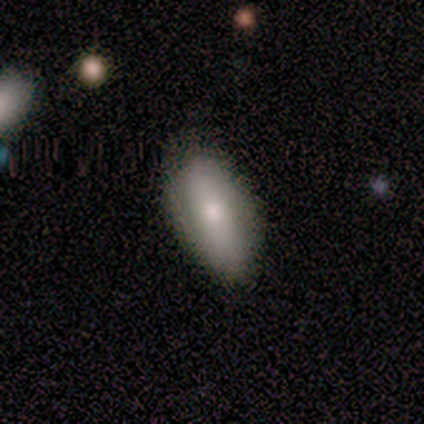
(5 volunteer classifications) This appears to be a smooth galaxy with no disk features (60%) that is in between round and cigar-shaped (67%). Merging: none (100%).